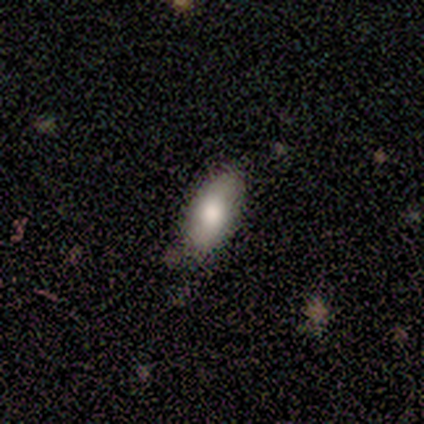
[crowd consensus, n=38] smooth-or-featured: smooth: 76% | featured or disk: 13% | star or artifact: 11%
  how-rounded: in between: 90% | cigar-shaped: 10% | round: 0%
  merging: none: 76% | minor disturbance: 24% | major disturbance: 0% | merger: 0%